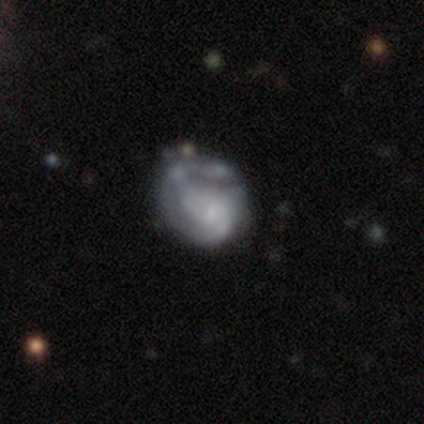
smooth-or-featured: featured or disk: 75% | smooth: 12% | star or artifact: 12%
  disk-edge-on: no: 100% | yes: 0%
    bar: no: 67% | weak: 33% | strong: 0%
    has-spiral-arms: yes: 50% (tied) | no: 50% (tied)
      spiral-winding: tight: 47% | medium: 40% | loose: 13%
      spiral-arm-count: 2: 47% | can't tell: 33% | 1: 13% | 3: 7% | 4: 0% | more than 4: 0%
    bulge-size: small: 47% | none: 30% | moderate: 17% | large: 7% | dominant: 0%
  merging: minor disturbance: 20% (tied) | major disturbance: 20% (tied) | merger: 20% (tied) | none: 14%